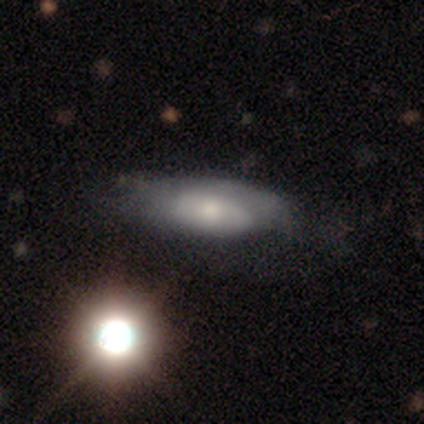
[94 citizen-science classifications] Smooth or featured? 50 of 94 (53%) said smooth. How rounded? 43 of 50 (86%) said in between. Merging? 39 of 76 (51%) said none.